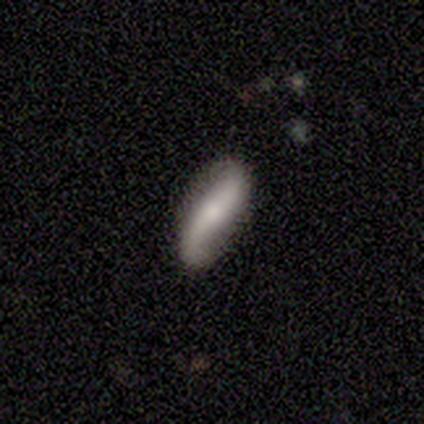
Smooth or featured?
  - featured or disk: 100% *
  - smooth: 0%
  - star or artifact: 0%
Edge-on disk?
  - no: 100% *
  - yes: 0%
Bar?
  - no: 60% *
  - strong: 20%
  - weak: 20%
Spiral arms?
  - yes: 80% *
  - no: 20%
Spiral winding?
  - loose: 75% *
  - tight: 25%
  - medium: 0%
Spiral arm count?
  - 2: 100% *
  - 1: 0%
  - 3: 0%
  - 4: 0%
  - more than 4: 0%
  - can't tell: 0%
Bulge size?
  - moderate: 80% *
  - small: 20%
  - dominant: 0%
  - large: 0%
  - none: 0%
Merging?
  - none: 100% *
  - minor disturbance: 0%
  - major disturbance: 0%
  - merger: 0%